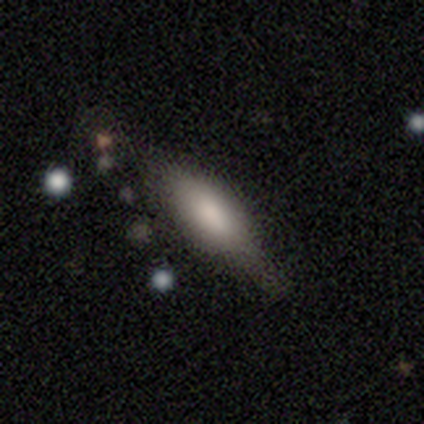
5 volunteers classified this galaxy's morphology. Q: Smooth or featured?
A: smooth (80%); runner-up: featured or disk (20%)
Q: How rounded?
A: in between (50%); tied with: cigar-shaped (50%)
Q: Merging?
A: minor disturbance (60%); runner-up: none (40%)